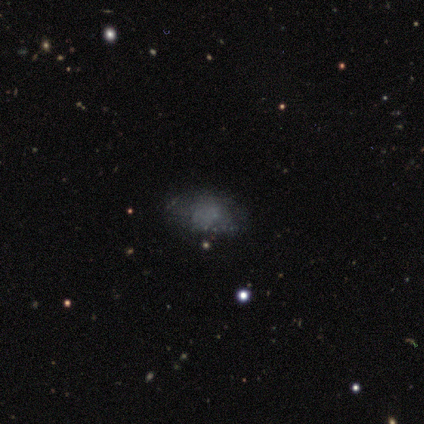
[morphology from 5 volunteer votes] type=smooth (100%); roundness=in between (80%); merging=none (100%).